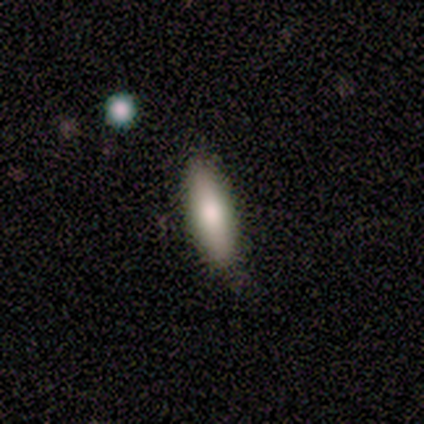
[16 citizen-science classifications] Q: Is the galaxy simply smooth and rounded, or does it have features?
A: smooth — 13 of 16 (81%).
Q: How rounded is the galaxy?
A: in between — 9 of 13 (69%).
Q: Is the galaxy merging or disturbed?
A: none — 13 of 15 (87%).